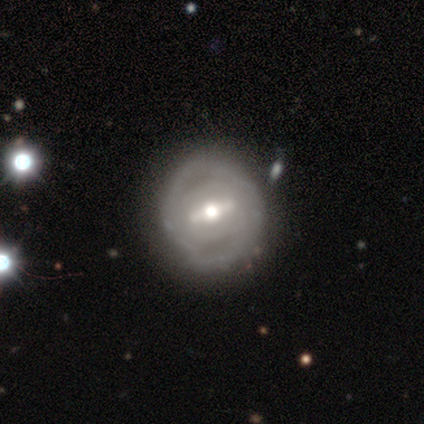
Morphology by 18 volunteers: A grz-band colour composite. It shows a featured or disk galaxy (89%) with a strong bar (80%), medium (60%) spiral arms (50%, tied with no) and a moderate central bulge (70%). Merging: none (72%).